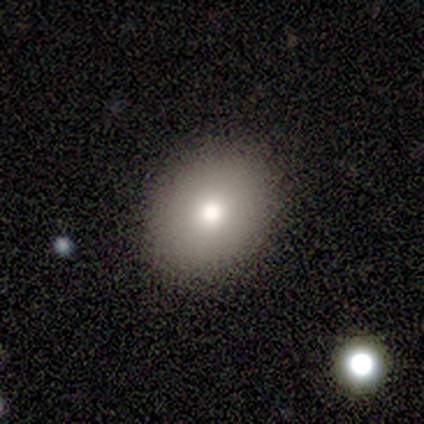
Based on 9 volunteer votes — Overall: smooth (89%). How rounded: round (50%, tied with in between). Merging: none (100%).